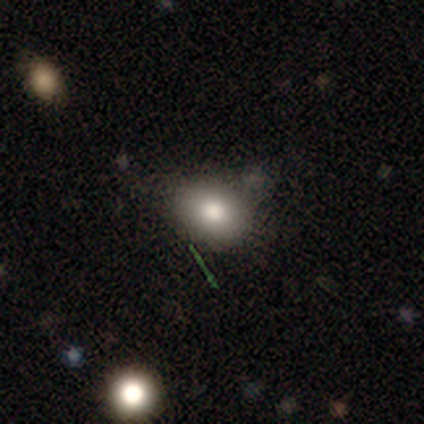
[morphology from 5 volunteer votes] Overall: smooth (80%). How rounded: in between (100%). Merging: none (50%, tied with minor disturbance).